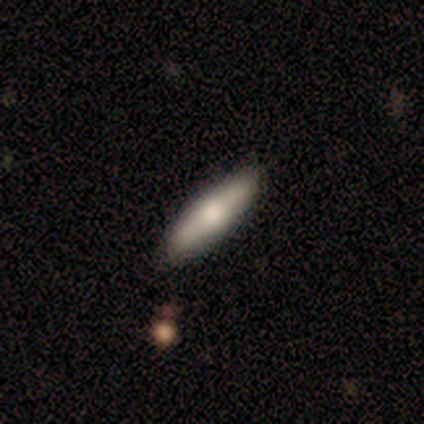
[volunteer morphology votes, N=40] smooth_or_featured: smooth (p=0.57) [alt: featured or disk p=0.38]
how_rounded: cigar-shaped (p=0.70) [alt: in between p=0.30]
merging: none (p=0.87) [alt: minor disturbance p=0.11]